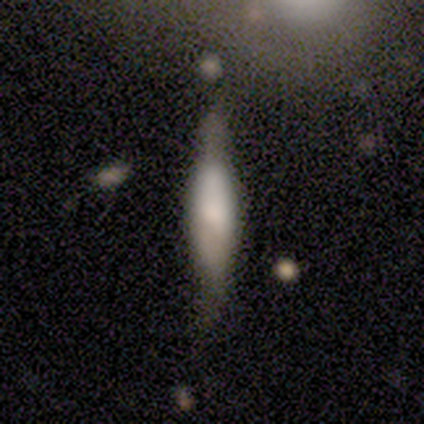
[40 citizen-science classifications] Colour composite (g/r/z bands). It shows a smooth galaxy with no disk features (57%) that is cigar-shaped (74%). Merging: none (72%).